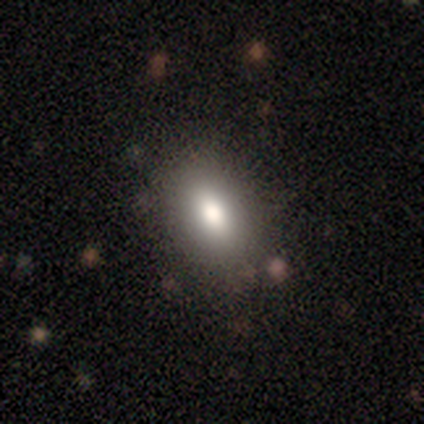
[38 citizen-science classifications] A smooth galaxy with no disk features (74%) that is in between round and cigar-shaped (82%). Merging: none (81%).